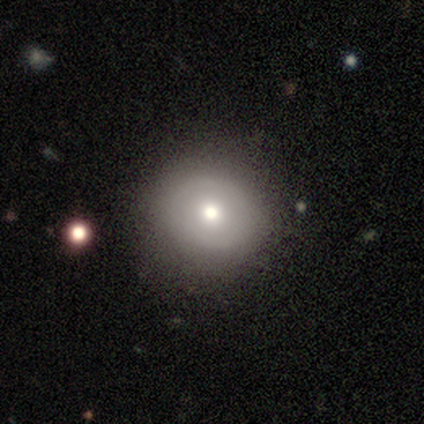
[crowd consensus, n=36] smooth 67%, featured or disk 25%, star or artifact 8%. Down the decision tree: how rounded — round (88%); merging — none (79%).